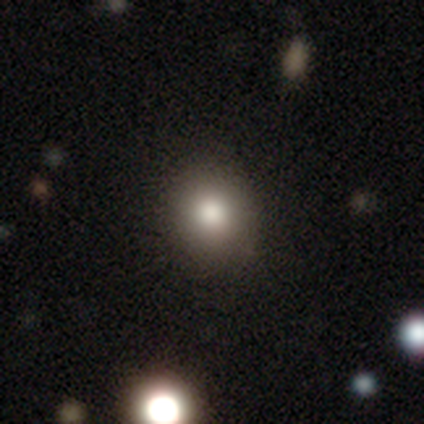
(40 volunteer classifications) smooth-or-featured: smooth: 75% | star or artifact: 15% | featured or disk: 10%
  how-rounded: round: 87% | in between: 13% | cigar-shaped: 0%
  merging: none: 62% | minor disturbance: 6% | merger: 3% | major disturbance: 0%